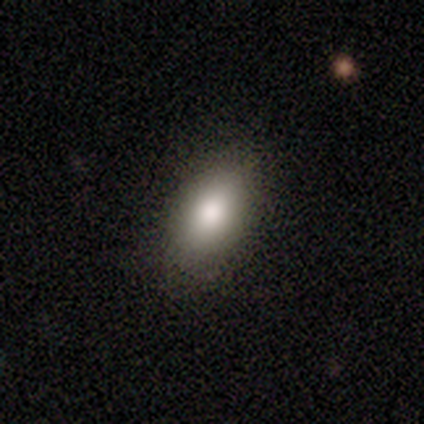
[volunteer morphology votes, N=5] Overall: smooth (80%). How rounded: in between (100%). Merging: none (100%).